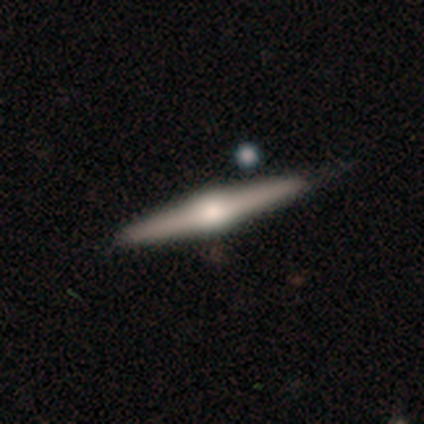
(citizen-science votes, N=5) Smooth or featured? 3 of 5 (60%) said featured or disk. Edge-on disk? 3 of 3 (100%) said yes. Edge-on bulge? 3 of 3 (100%) said rounded. Merging? 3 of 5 (60%) said minor disturbance.